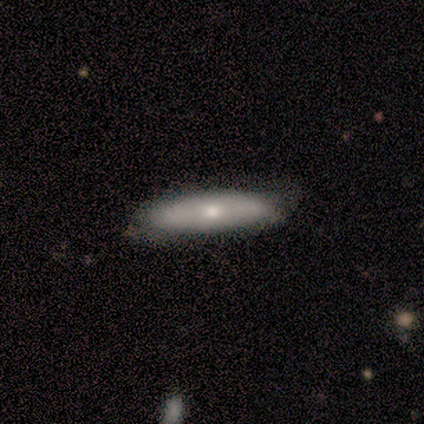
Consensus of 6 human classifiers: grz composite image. It shows a featured or disk galaxy (67%) viewed edge-on (100%) with a rounded central bulge (100%). Merging: none (67%).